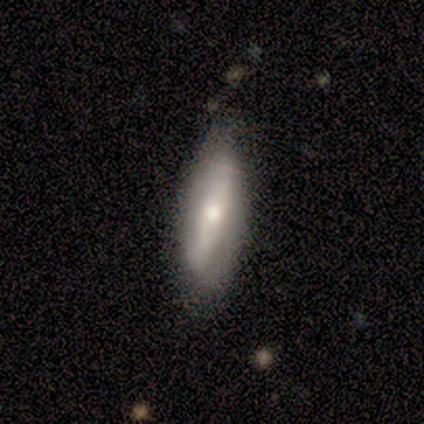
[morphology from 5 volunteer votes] A smooth galaxy with no disk features (60%) that is in between round and cigar-shaped (100%). Merging: none (80%).